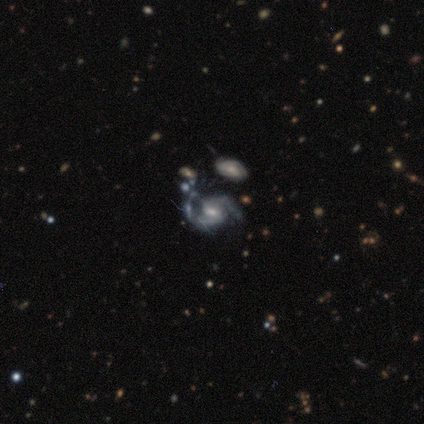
Smooth or featured? 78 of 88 (89%) said featured or disk. Edge-on disk? 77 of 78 (99%) said no. Bar? 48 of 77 (62%) said weak. Spiral arms? 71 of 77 (92%) said yes. Spiral winding? 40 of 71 (56%) said medium. Spiral arm count? 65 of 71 (92%) said 2. Bulge size? 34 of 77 (44%) said moderate. Merging? 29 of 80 (36%) said none.